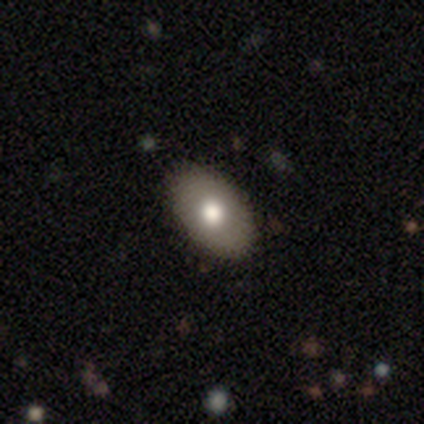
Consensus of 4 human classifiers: Q: Smooth or featured?
A: smooth (75%); runner-up: featured or disk (25%)
Q: How rounded?
A: in between (67%); runner-up: round (33%)
Q: Merging?
A: none (100%)